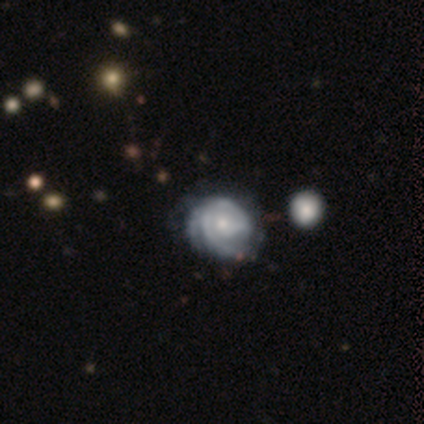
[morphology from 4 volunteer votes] smooth-or-featured: featured or disk: 100% | smooth: 0% | star or artifact: 0%
  disk-edge-on: no: 100% | yes: 0%
    bar: no: 75% | weak: 25% | strong: 0%
    has-spiral-arms: yes: 75% | no: 25%
      spiral-winding: tight: 100% | medium: 0% | loose: 0%
      spiral-arm-count: can't tell: 67% | 2: 33% | 1: 0% | 3: 0% | 4: 0% | more than 4: 0%
    bulge-size: small: 75% | moderate: 25% | dominant: 0% | large: 0% | none: 0%
  merging: none: 75% | minor disturbance: 25% | major disturbance: 0% | merger: 0%